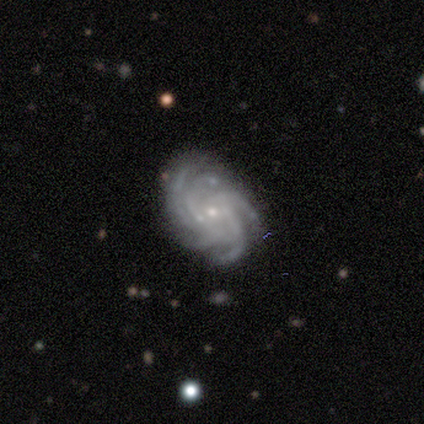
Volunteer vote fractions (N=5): Morphology: type=featured or disk (100%); edge-on=no (100%); bar=no (80%); spiral arms=yes (100%); winding=tight (60%); arm count=more than 4 (100%); bulge=small (100%); merging=none (60%).